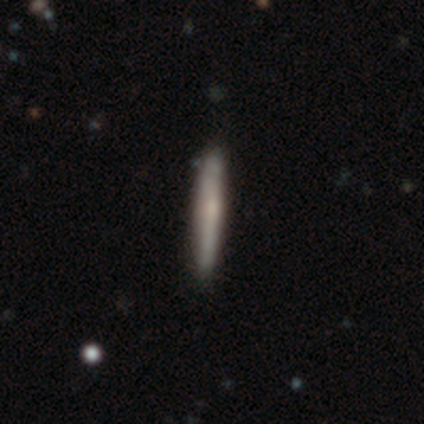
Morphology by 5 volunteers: Smooth or featured?
  - smooth: 80% *
  - featured or disk: 20%
  - star or artifact: 0%
How rounded?
  - cigar-shaped: 100% *
  - round: 0%
  - in between: 0%
Merging?
  - none: 100% *
  - minor disturbance: 0%
  - major disturbance: 0%
  - merger: 0%